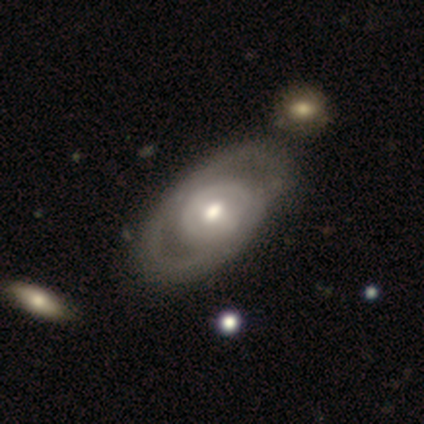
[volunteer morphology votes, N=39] Overall: featured or disk (74%). Edge-on disk: no (90%). Bar: no (62%; weak 23%). Spiral arms: no (65%; yes 35%). Bulge size: moderate (77%). Merging: none (54%).